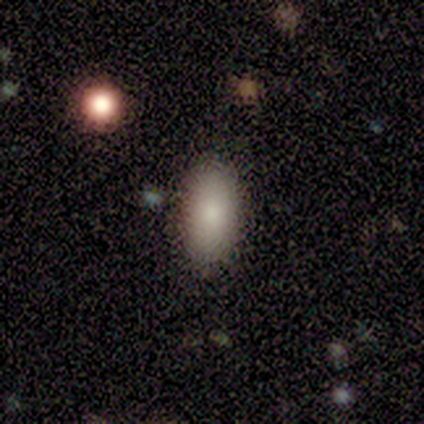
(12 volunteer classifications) Overall: smooth (92%). How rounded: in between (91%). Merging: none (75%).